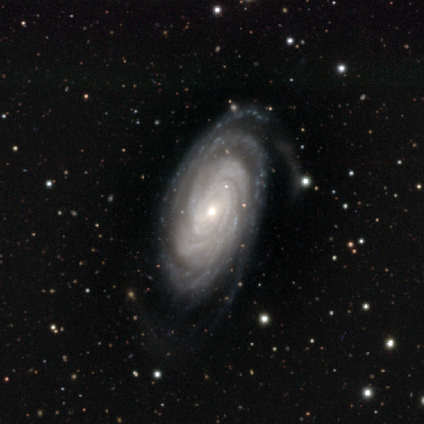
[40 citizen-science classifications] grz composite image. It shows a featured or disk galaxy (95%) with no bar (57%), more than 4 (31%) tight (91%) spiral arms (100%) and a small central bulge (63%). Merging: none (56%).